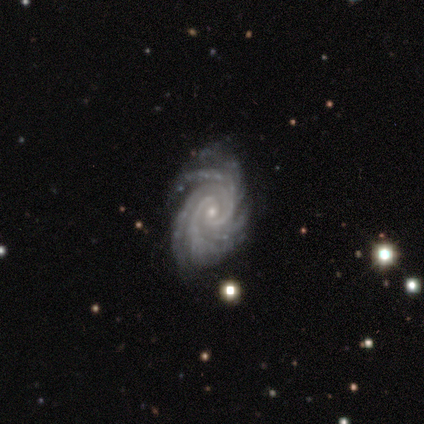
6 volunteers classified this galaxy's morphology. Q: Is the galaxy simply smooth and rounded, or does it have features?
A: featured or disk — 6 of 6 (100%).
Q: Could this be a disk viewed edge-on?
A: no — 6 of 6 (100%).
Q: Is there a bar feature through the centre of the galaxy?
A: no — 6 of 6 (100%).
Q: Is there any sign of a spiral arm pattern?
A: yes — 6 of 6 (100%).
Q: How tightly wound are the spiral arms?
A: tight — 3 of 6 (50%, tied with medium).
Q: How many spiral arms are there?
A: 4 — 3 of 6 (50%).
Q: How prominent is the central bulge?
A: small — 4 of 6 (67%).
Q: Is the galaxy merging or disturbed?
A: none — 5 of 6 (83%).